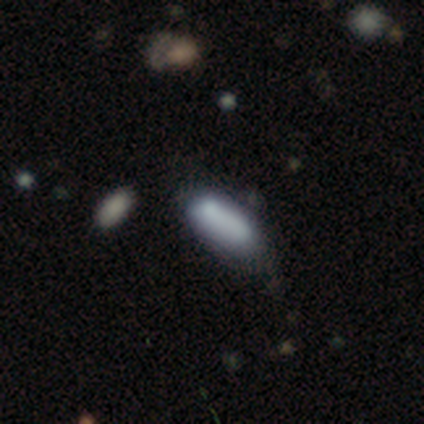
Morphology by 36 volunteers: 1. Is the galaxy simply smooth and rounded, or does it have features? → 72% smooth, 22% star or artifact, 6% featured or disk.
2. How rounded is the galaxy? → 65% in between, 31% cigar-shaped, 4% round.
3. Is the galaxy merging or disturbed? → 46% minor disturbance, 36% none, 11% major disturbance, 7% merger.